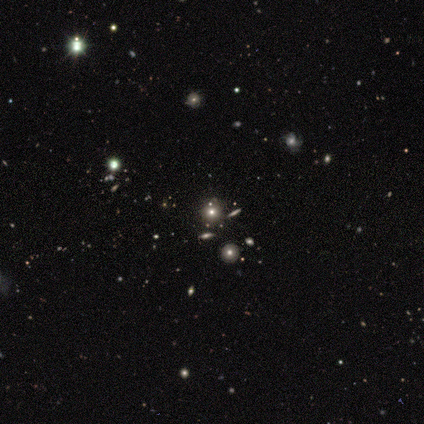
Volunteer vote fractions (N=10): This is likely a star or artifact rather than a galaxy (60%).